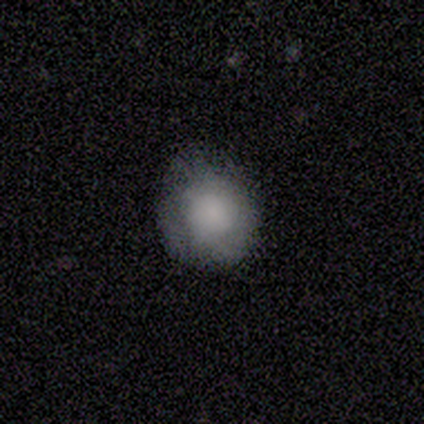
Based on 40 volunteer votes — This appears to be a smooth galaxy with no disk features (72%) that is round (83%). Merging: none (62%).